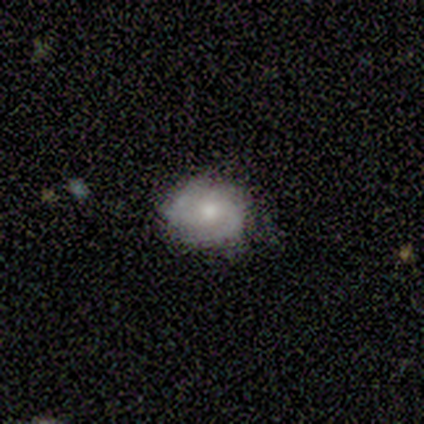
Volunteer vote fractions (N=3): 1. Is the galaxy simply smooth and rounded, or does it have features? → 67% featured or disk, 33% smooth, 0% star or artifact.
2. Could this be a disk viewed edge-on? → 100% no, 0% yes.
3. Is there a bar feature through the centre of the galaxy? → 100% no, 0% strong, 0% weak.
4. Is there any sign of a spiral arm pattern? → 100% yes, 0% no.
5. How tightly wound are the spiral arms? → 50% tight (tied), 50% medium (tied), 0% loose.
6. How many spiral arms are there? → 100% 2, 0% 1, 0% 3, 0% 4, 0% more than 4, 0% can't tell.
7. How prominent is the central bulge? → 50% moderate (tied), 50% small (tied), 0% dominant, 0% large, 0% none.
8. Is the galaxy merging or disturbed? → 100% none, 0% minor disturbance, 0% major disturbance, 0% merger.